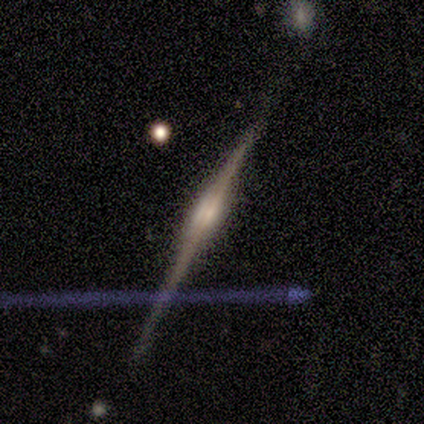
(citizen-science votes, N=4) Volunteers were most divided on "merging": none: 50%, minor disturbance: 25%, merger: 25%, major disturbance: 0%. More confident: smooth or featured — featured or disk (100%); edge-on disk — yes (100%); edge-on bulge — rounded (75%).